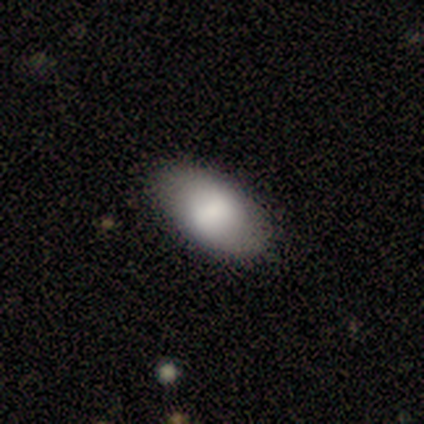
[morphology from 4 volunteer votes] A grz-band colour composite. It shows a smooth galaxy with no disk features (100%) that is in between round and cigar-shaped (100%). Merging: none (100%).